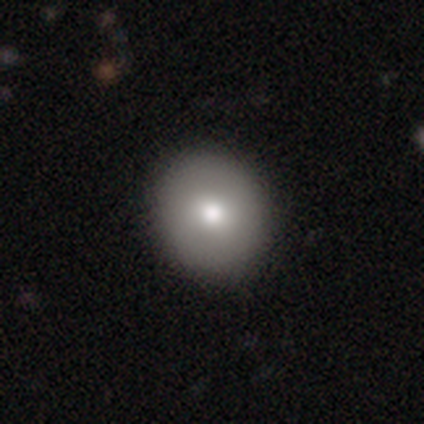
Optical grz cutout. It shows a smooth galaxy with no disk features (88%) that is round (86%). Merging: none (100%).